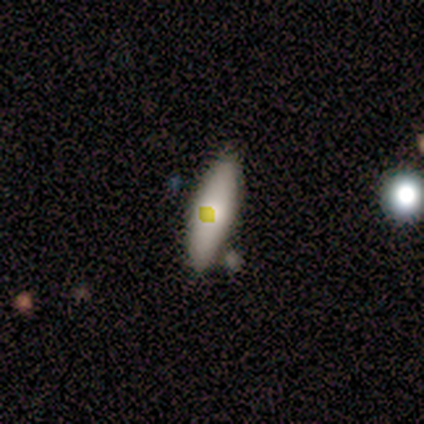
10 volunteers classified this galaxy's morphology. This appears to be a smooth galaxy with no disk features (70%) that is in between round and cigar-shaped (71%). Merging: none (78%).